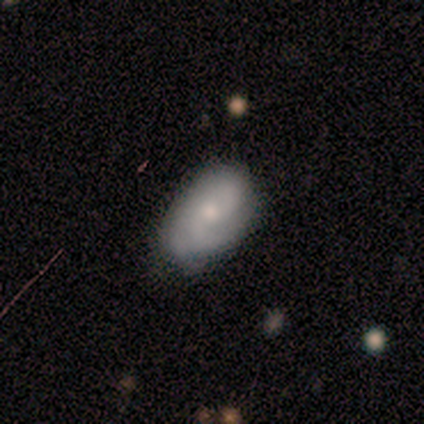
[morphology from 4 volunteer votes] Q: Smooth or featured?
A: smooth (50%); tied with: featured or disk (50%)
Q: How rounded?
A: round (50%); tied with: in between (50%)
Q: Merging?
A: none (100%)